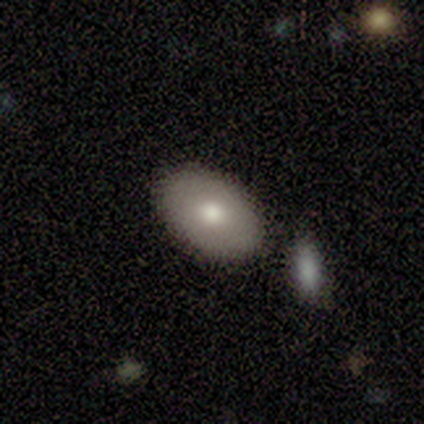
Volunteers were most divided on "smooth or featured": smooth: 60%, featured or disk: 40%, star or artifact: 0%. More confident: merging — none (80%); how rounded — in between (67%).